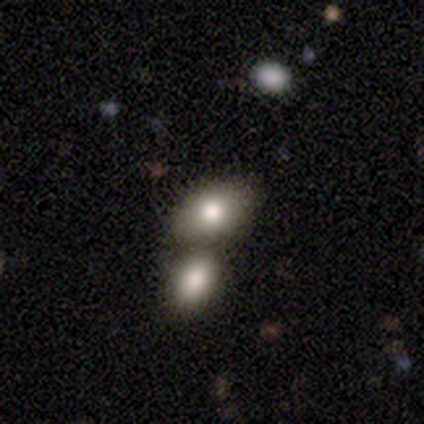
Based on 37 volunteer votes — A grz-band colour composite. It shows a smooth galaxy with no disk features (81%) that is in between round and cigar-shaped (80%). Merging: merger (88%).